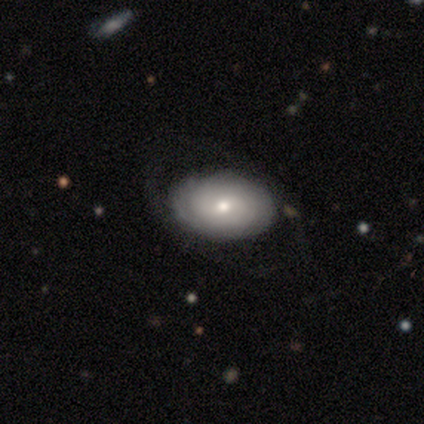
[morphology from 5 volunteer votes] Smooth or featured? 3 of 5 (60%) said featured or disk. Edge-on disk? 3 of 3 (100%) said no. Bar? 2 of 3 (67%) said no. Spiral arms? 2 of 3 (67%) said yes. Spiral winding? 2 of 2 (100%) said medium. Spiral arm count? 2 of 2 (100%) said 2. Bulge size? 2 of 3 (67%) said moderate. Merging? 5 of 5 (100%) said none.